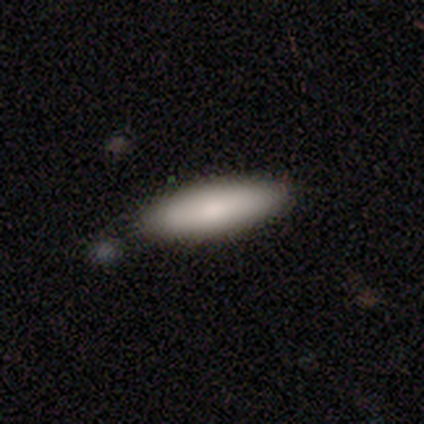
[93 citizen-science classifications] Q: Smooth or featured?
A: smooth (85%); runner-up: featured or disk (11%)
Q: How rounded?
A: cigar-shaped (51%); runner-up: in between (49%)
Q: Merging?
A: none (83%); runner-up: minor disturbance (12%)